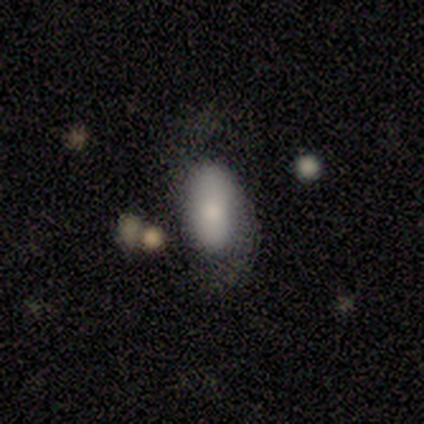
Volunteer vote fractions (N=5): smooth 60%, star or artifact 40%, featured or disk 0%. Down the decision tree: how rounded — in between (100%); merging — minor disturbance (67%).